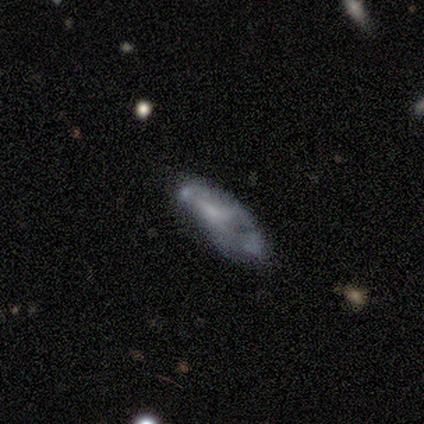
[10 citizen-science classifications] Q: Smooth or featured?
A: smooth (40%); tied with: featured or disk (40%)
Q: How rounded?
A: in between (100%)
Q: Merging?
A: major disturbance (38%); runner-up: none (25%)